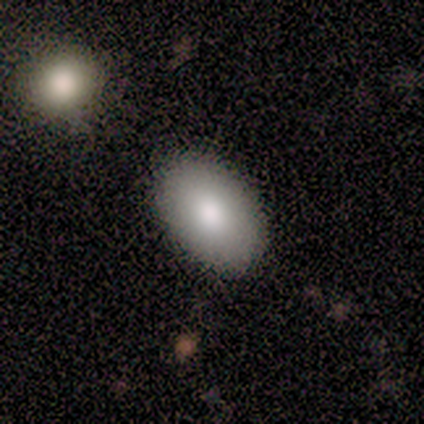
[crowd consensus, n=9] This appears to be a smooth galaxy with no disk features (89%) that is in between round and cigar-shaped (88%). Merging: none (62%).